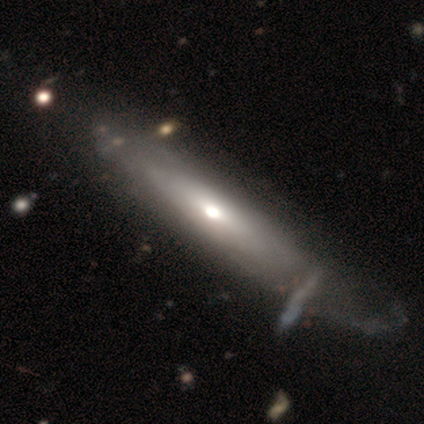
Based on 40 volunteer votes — A featured or disk galaxy (60%) with no bar (86%), no spiral arms (57%) and a moderate central bulge (64%).

Vote fractions:
- Smooth or featured? featured or disk: 60% / smooth: 32% / star or artifact: 8%
- Edge-on disk? no: 58% / yes: 42%
- Bar? no: 86% / weak: 14% / strong: 0%
- Spiral arms? no: 57% / yes: 43%
- Bulge size? moderate: 64% / small: 36% / dominant: 0% / large: 0% / none: 0%
- Merging? none: 32% / minor disturbance: 14% / major disturbance: 14% / merger: 5%